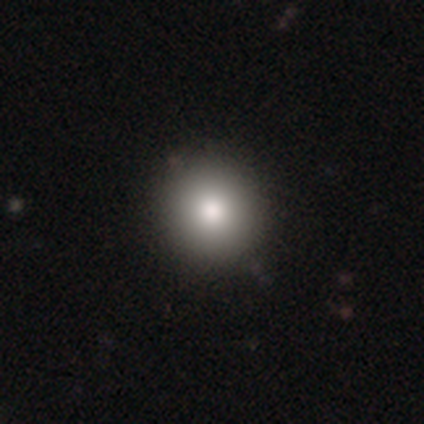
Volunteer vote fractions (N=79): smooth 87%, star or artifact 9%, featured or disk 4%. Down the decision tree: how rounded — round (96%); merging — none (50%).